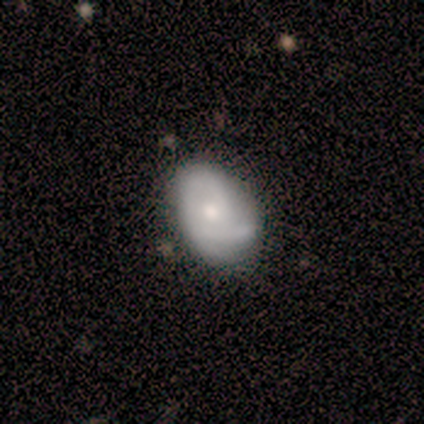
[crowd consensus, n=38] This is possibly a featured or disk galaxy (50%). It is clearly not viewed edge-on (100%). Bar: likely no (79%). Spiral arm pattern: likely yes (79%). Spiral arm count: marginally can't tell (40%). Spiral winding: possibly tight (47%). Central bulge: possibly small (53%). Merging: possibly none (53%).